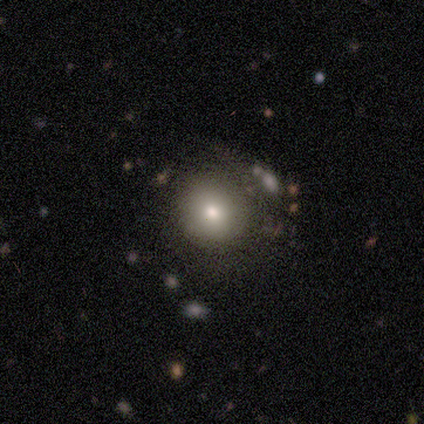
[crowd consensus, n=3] smooth 100%, featured or disk 0%, star or artifact 0%. Down the decision tree: how rounded — round (100%); merging — none (100%).